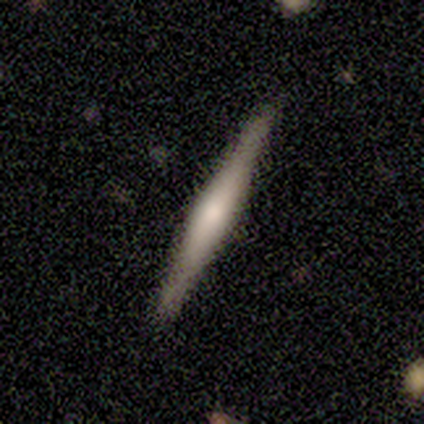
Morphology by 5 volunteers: A featured or disk galaxy (80%) viewed edge-on (100%) with a boxy central bulge (75%). Merging: none (100%).